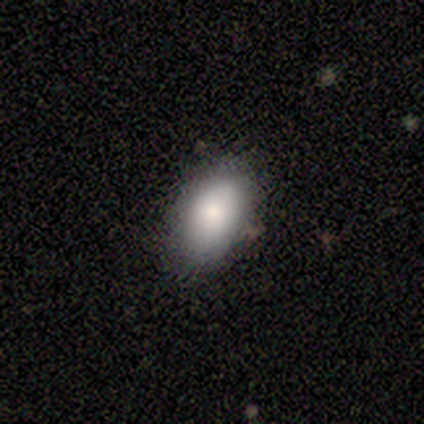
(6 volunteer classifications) Morphology: type=smooth (100%); roundness=in between (100%); merging=none (83%).